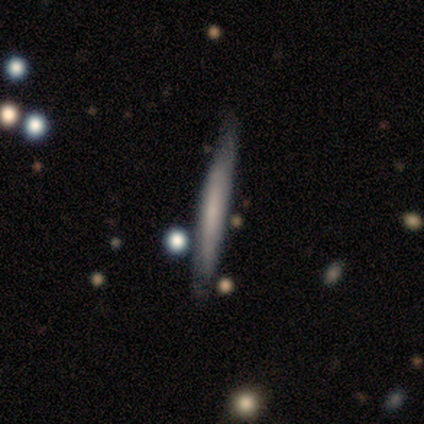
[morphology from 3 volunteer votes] Overall: smooth (67%; featured or disk 33%). How rounded: cigar-shaped (100%). Merging: none (67%; minor disturbance 33%).